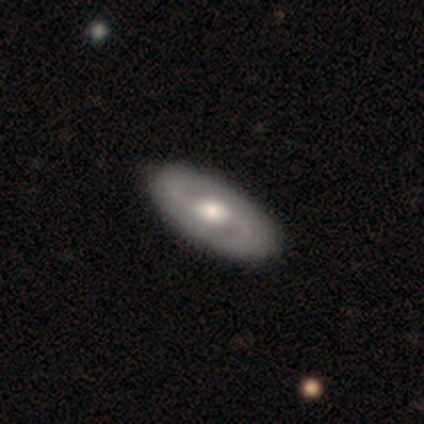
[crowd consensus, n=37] smooth_or_featured: featured or disk (p=0.65) [alt: smooth p=0.35]
disk_edge_on: no (p=0.92) [alt: yes p=0.08]
bar: no (p=0.73) [alt: weak p=0.27]
has_spiral_arms: yes (p=0.55) [alt: no p=0.45]
spiral_winding: tight (p=0.42) [tied with: medium p=0.42]
spiral_arm_count: 2 (p=0.92) [alt: can't tell p=0.08]
bulge_size: moderate (p=0.55) [alt: large p=0.36]
merging: none (p=0.65) [alt: minor disturbance p=0.03]